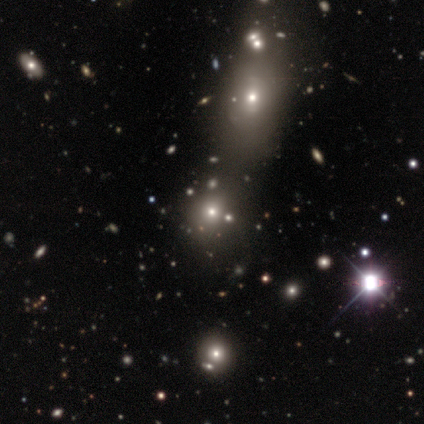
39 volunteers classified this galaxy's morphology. Overall: smooth (49%, tied with star or artifact). How rounded: round (68%; in between 32%). Merging: none (70%).